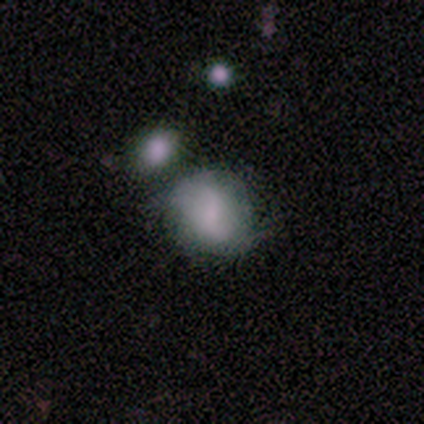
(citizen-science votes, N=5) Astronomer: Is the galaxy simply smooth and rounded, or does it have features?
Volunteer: featured or disk — 60% (runner-up: smooth, 40%).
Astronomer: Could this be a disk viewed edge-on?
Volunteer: no — 100%.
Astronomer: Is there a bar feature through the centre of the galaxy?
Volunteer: no — 67%.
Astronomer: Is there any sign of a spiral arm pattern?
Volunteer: no — 67%.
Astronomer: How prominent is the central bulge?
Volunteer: large — 33%, tied with moderate and none at 33%.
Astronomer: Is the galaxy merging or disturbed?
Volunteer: none — 80%.